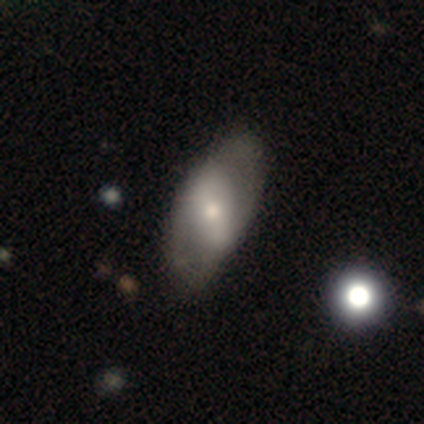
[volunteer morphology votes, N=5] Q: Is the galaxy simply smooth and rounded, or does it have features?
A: featured or disk — 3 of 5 (60%).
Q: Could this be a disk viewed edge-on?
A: no — 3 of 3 (100%).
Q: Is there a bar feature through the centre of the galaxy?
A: weak — 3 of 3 (100%).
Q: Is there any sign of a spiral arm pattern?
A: no — 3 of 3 (100%).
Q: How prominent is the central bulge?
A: small — 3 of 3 (100%).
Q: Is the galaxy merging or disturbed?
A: none — 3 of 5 (60%).